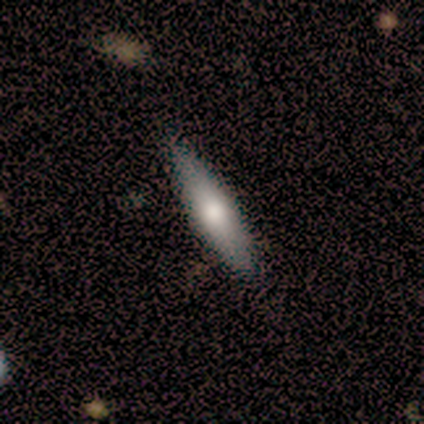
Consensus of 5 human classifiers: A smooth galaxy with no disk features (80%) that is cigar-shaped (100%).

Vote fractions:
- Smooth or featured? smooth: 80% / featured or disk: 20% / star or artifact: 0%
- How rounded? cigar-shaped: 100% / round: 0% / in between: 0%
- Merging? none: 100% / minor disturbance: 0% / major disturbance: 0% / merger: 0%